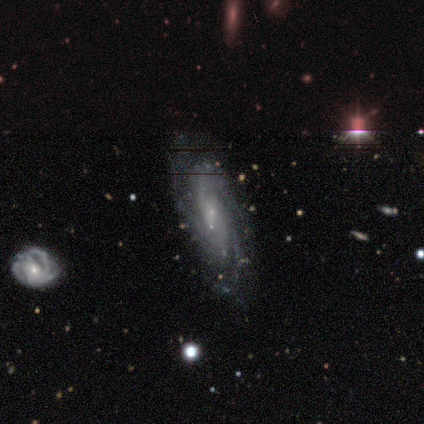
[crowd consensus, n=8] Smooth or featured: featured or disk — 88% (smooth — 12%)
Edge-on disk: no — 100%
Bar: no — 57% (weak — 29%)
Spiral arms: yes — 100%
Spiral winding: medium — 57% (tight — 29%)
Spiral arm count: can't tell — 43% (2 — 14%)
Bulge size: small — 71% (moderate — 14%)
Merging: none — 100%